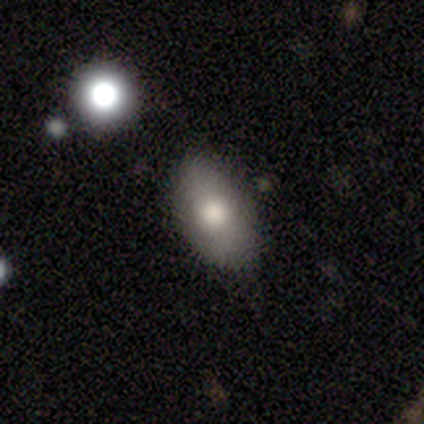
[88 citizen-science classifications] A smooth galaxy with no disk features (77%) that is in between round and cigar-shaped (93%). Merging: none (78%).